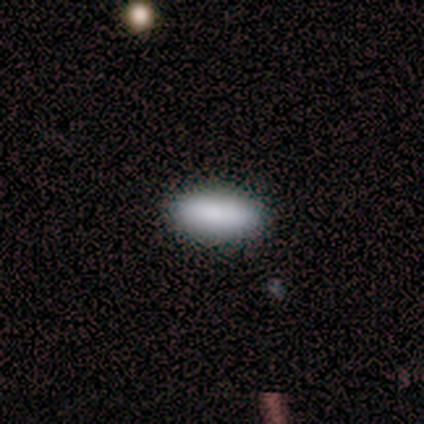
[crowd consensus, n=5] Smooth or featured? smooth (100%)
How rounded? in between (100%)
Merging? none (100%)